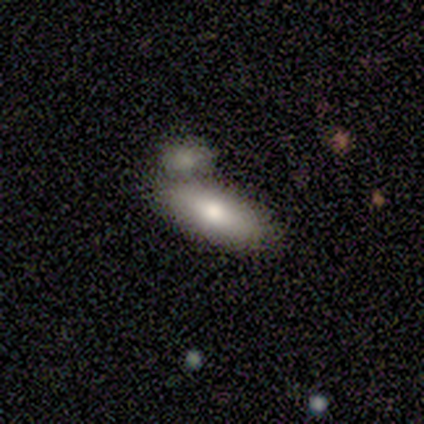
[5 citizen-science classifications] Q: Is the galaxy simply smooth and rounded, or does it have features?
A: smooth — 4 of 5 (80%).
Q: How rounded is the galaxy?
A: in between — 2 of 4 (50%, tied with cigar-shaped).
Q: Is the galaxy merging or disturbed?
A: none — 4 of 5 (80%).